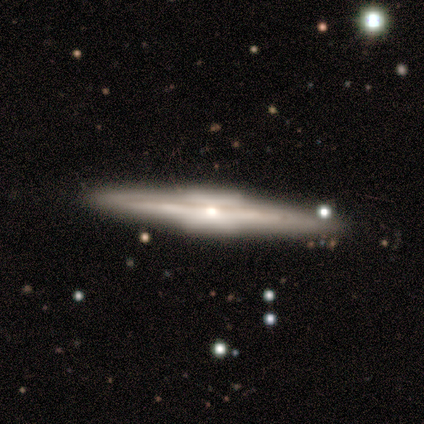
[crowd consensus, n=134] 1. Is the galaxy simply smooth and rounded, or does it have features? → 92% featured or disk, 6% smooth, 2% star or artifact.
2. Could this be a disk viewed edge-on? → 98% yes, 2% no.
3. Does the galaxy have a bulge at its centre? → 73% boxy, 27% rounded, 0% none.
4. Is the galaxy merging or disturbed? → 93% none, 4% minor disturbance, 2% major disturbance, 2% merger.